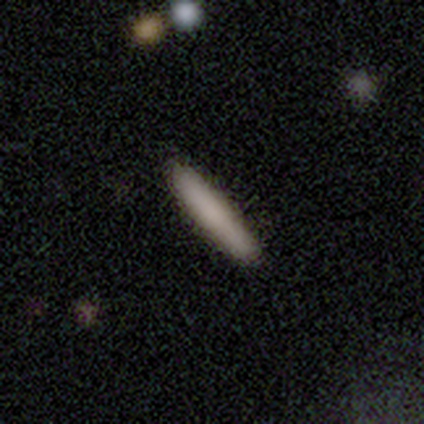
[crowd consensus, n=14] smooth_or_featured: smooth (p=0.93) [alt: featured or disk p=0.07]
how_rounded: cigar-shaped (p=1.00)
merging: none (p=0.93) [alt: minor disturbance p=0.07]